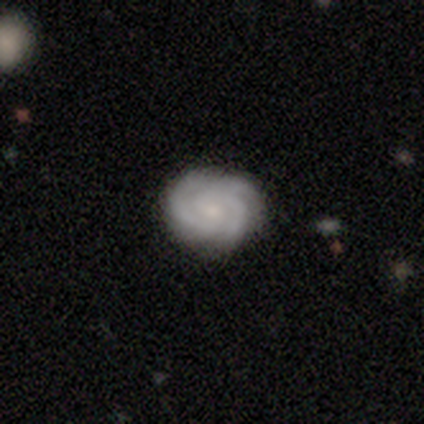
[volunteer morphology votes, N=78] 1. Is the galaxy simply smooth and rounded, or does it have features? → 82% featured or disk, 13% smooth, 5% star or artifact.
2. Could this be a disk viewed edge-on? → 100% no, 0% yes.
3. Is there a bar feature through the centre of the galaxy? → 70% no, 30% weak, 0% strong.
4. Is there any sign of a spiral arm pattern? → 97% yes, 3% no.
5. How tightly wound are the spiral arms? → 73% tight, 26% medium, 2% loose.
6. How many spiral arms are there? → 76% 3, 11% can't tell, 8% 2, 3% 4, 2% more than 4, 0% 1.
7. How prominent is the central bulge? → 58% small, 33% moderate, 5% none, 3% large, 2% dominant.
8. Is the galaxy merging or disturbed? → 78% none, 16% minor disturbance, 3% major disturbance, 3% merger.